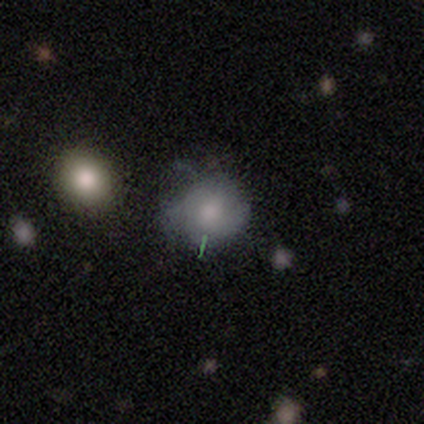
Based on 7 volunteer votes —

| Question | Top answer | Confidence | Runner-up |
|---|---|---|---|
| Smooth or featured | smooth | 43% | tied: featured or disk (43%) |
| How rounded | round | 100% | — |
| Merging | none | 50% | tied: minor disturbance (50%) |